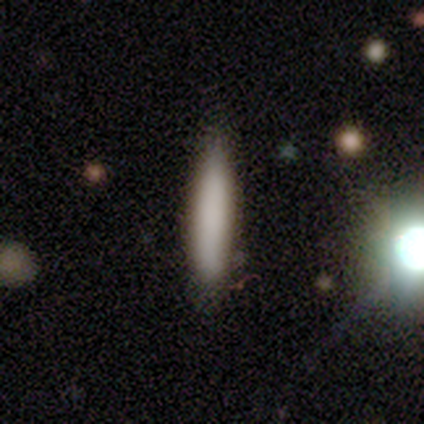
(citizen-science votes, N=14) This is likely a smooth galaxy (71%). How rounded: clearly cigar-shaped (90%). Merging: likely none (71%).